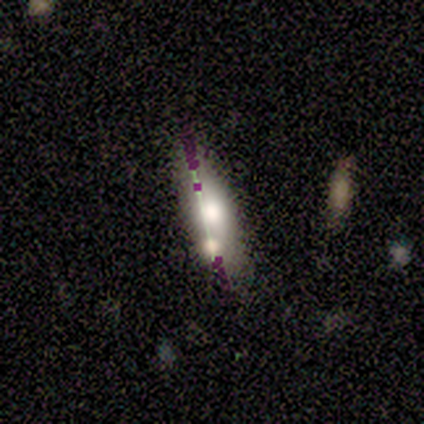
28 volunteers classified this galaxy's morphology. Q: Smooth or featured?
A: smooth (39%); runner-up: featured or disk (36%)
Q: How rounded?
A: in between (64%); runner-up: cigar-shaped (36%)
Q: Merging?
A: none (43%); runner-up: merger (33%)